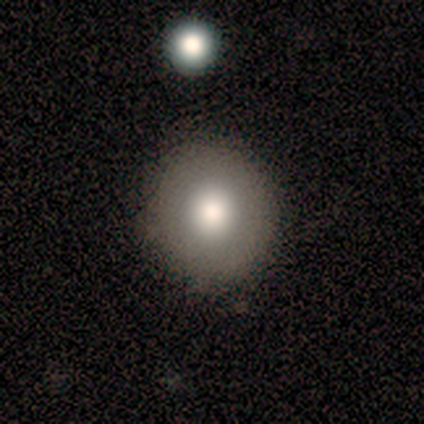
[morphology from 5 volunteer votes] Smooth or featured? smooth (80%)
How rounded? round (100%)
Merging? none (80%)